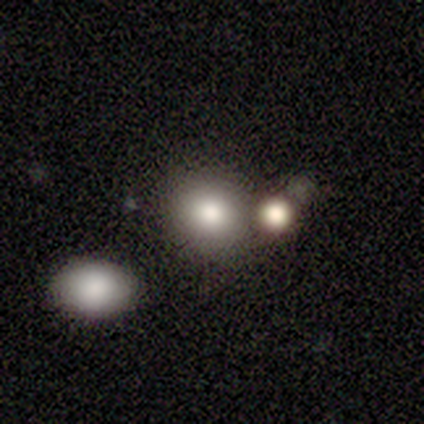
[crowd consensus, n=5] A smooth galaxy with no disk features (100%) that is round (60%).

Vote fractions:
- Smooth or featured? smooth: 100% / featured or disk: 0% / star or artifact: 0%
- How rounded? round: 60% / in between: 40% / cigar-shaped: 0%
- Merging? minor disturbance: 40% (tied) / merger: 40% (tied) / none: 20% / major disturbance: 0%